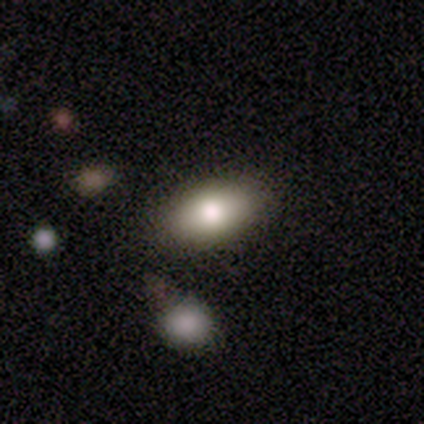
Q: Smooth or featured?
A: smooth (100%)
Q: How rounded?
A: in between (100%)
Q: Merging?
A: none (80%); runner-up: minor disturbance (20%)